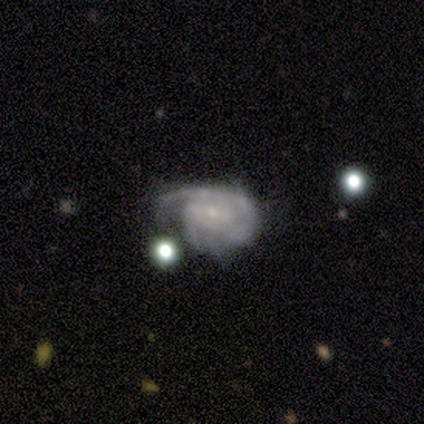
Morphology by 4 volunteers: featured or disk 100%, smooth 0%, star or artifact 0%. Down the decision tree: edge-on disk — no (100%); bar — weak (50%, tied with no); spiral arms — yes (100%); spiral arm count — 3 (50%); spiral winding — tight (100%); bulge size — small (100%); merging — minor disturbance (50%).